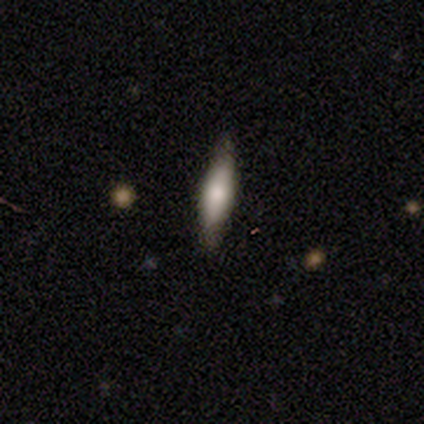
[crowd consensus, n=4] smooth-or-featured: featured or disk: 75% | smooth: 25% | star or artifact: 0%
  disk-edge-on: yes: 67% | no: 33%
    edge-on-bulge: boxy: 50% (tied) | rounded: 50% (tied) | none: 0%
  merging: none: 75% | minor disturbance: 25% | major disturbance: 0% | merger: 0%